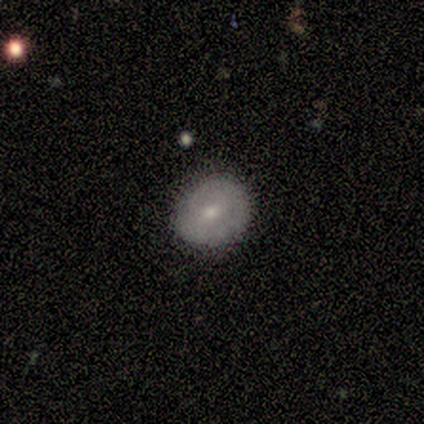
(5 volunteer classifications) This is likely a smooth galaxy (60%). How rounded: likely round (67%). Merging: likely none (60%).